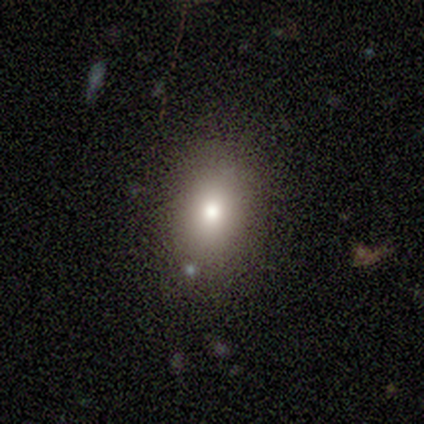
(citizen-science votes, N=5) Smooth or featured? 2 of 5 (40%, tied with star or artifact) said smooth. How rounded? 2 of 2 (100%) said in between. Merging? 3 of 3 (100%) said none.